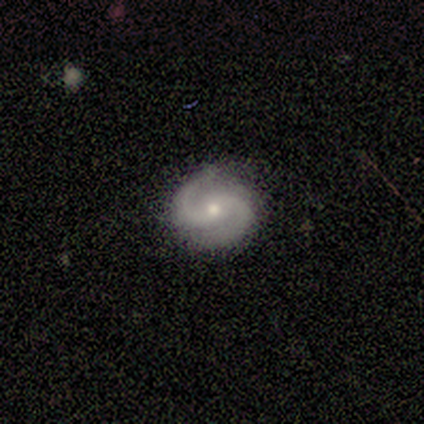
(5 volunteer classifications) A featured or disk galaxy (100%) with no bar (50%), 2 (100%) tight (75%) spiral arms (100%) and a moderate central bulge (50%, tied with small). Merging: none (100%).